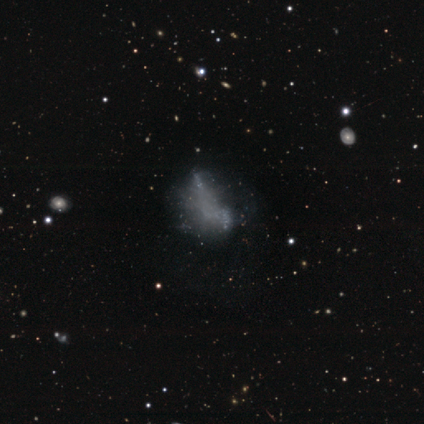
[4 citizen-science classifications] A star or artifact, not a galaxy (50%).